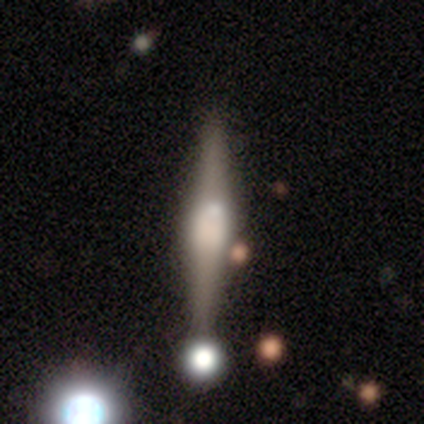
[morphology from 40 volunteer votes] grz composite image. It shows a featured or disk galaxy (82%) viewed edge-on (100%) with a boxy central bulge (52%). Merging: none (74%).